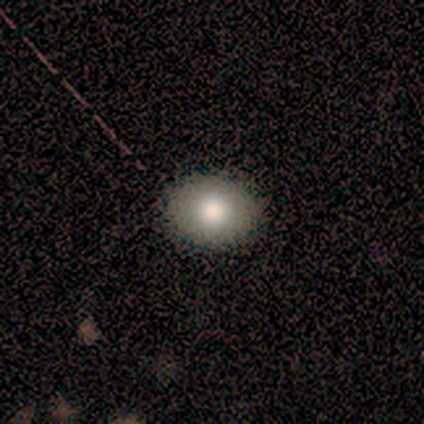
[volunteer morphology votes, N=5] smooth-or-featured: smooth: 100% | featured or disk: 0% | star or artifact: 0%
  how-rounded: round: 80% | in between: 20% | cigar-shaped: 0%
  merging: none: 100% | minor disturbance: 0% | major disturbance: 0% | merger: 0%